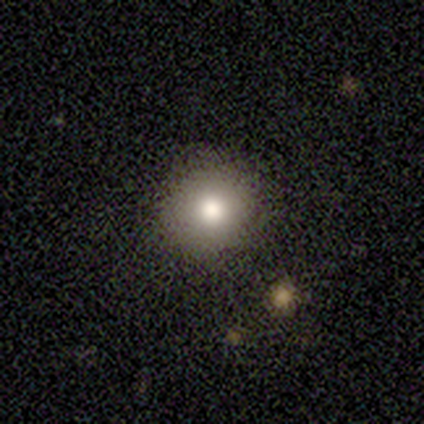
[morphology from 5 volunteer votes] Smooth or featured?
  - smooth: 100% *
  - featured or disk: 0%
  - star or artifact: 0%
How rounded?
  - round: 80% *
  - in between: 20%
  - cigar-shaped: 0%
Merging?
  - none: 100% *
  - minor disturbance: 0%
  - major disturbance: 0%
  - merger: 0%